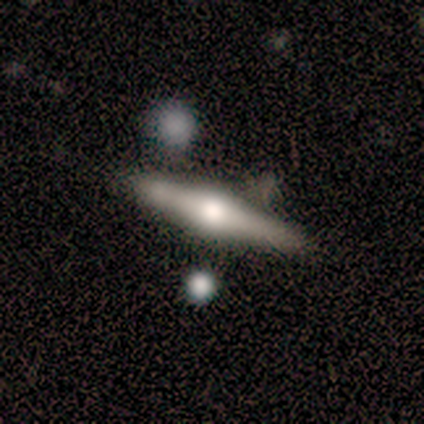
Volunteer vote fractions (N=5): Smooth or featured: featured or disk — 60% (smooth — 20%)
Edge-on disk: yes — 100%
Edge-on bulge: rounded — 100%
Merging: none — 75% (minor disturbance — 25%)